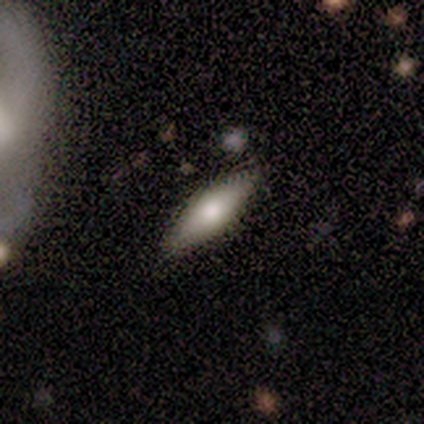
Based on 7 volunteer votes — Smooth or featured? smooth (57%)
How rounded? cigar-shaped (75%)
Merging? none (71%)